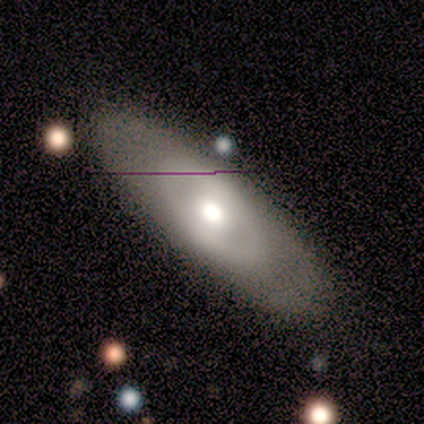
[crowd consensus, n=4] A smooth galaxy with no disk features (50%, tied with featured or disk) that is in between round and cigar-shaped (50%, tied with cigar-shaped). Merging: none (100%).